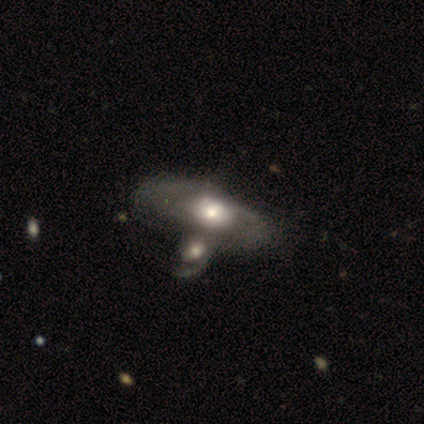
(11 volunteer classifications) A featured or disk galaxy (73%) with no bar (88%), 2 (71%) medium (57%) spiral arms (88%) and a moderate central bulge (50%). Merging: merger (73%).